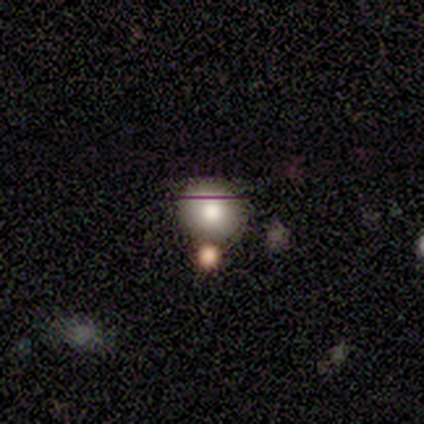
smooth_or_featured: smooth (p=1.00)
how_rounded: round (p=1.00)
merging: none (p=1.00)